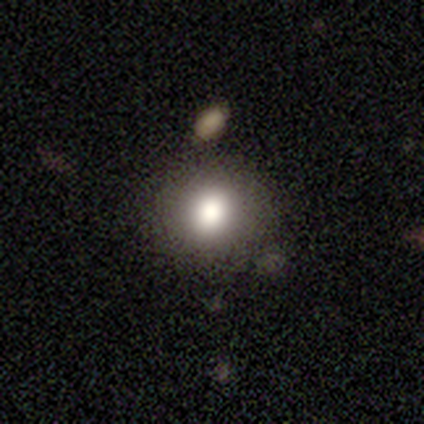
smooth_or_featured: star or artifact (p=0.75) [alt: smooth p=0.25]